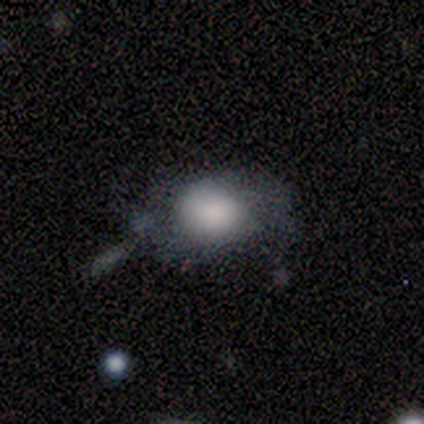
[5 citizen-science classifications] Smooth or featured? 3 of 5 (60%) said smooth. How rounded? 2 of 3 (67%) said in between. Merging? 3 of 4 (75%) said none.